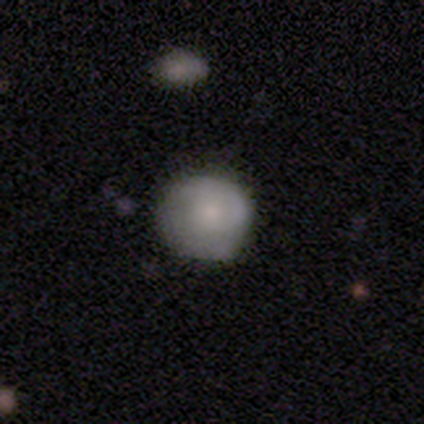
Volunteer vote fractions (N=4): Q: Smooth or featured?
A: smooth (50%); runner-up: featured or disk (25%)
Q: How rounded?
A: round (100%)
Q: Merging?
A: none (100%)